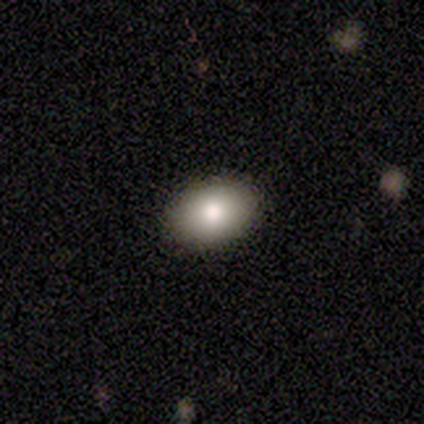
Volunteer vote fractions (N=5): Overall: smooth (100%). How rounded: in between (100%). Merging: none (80%).